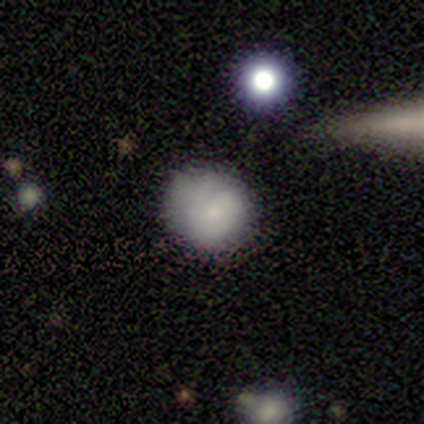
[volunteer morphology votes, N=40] This is likely a smooth galaxy (72%). How rounded: clearly round (90%). Merging: likely none (71%).